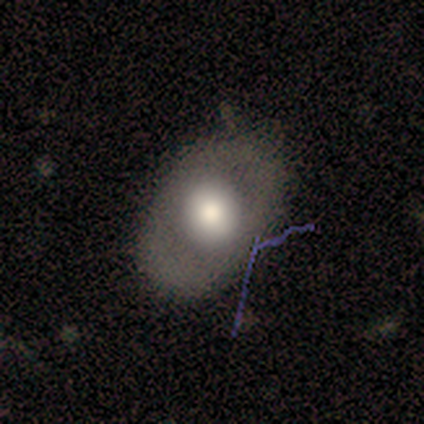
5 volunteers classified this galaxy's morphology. smooth_or_featured: smooth (p=0.80) [alt: featured or disk p=0.20]
how_rounded: in between (p=0.75) [alt: round p=0.25]
merging: none (p=0.80) [alt: major disturbance p=0.20]